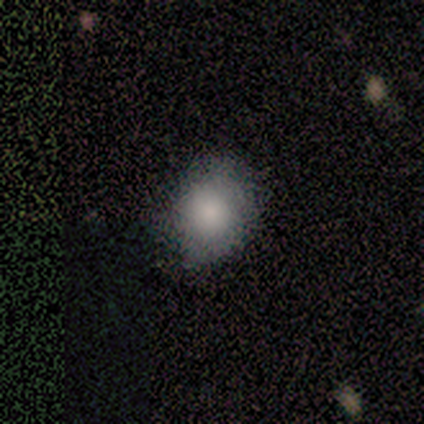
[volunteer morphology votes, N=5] This appears to be a smooth galaxy with no disk features (80%) that is round (50%, tied with in between). Merging: none (75%).